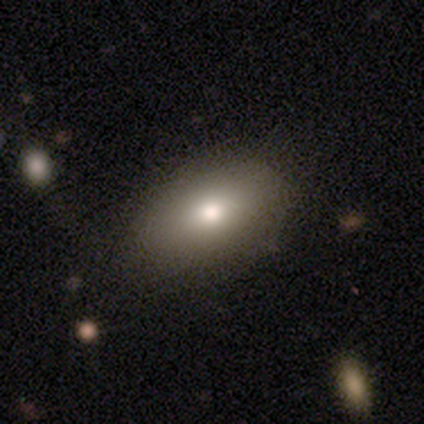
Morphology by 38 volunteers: type=smooth (76%); roundness=in between (97%); merging=none (56%).